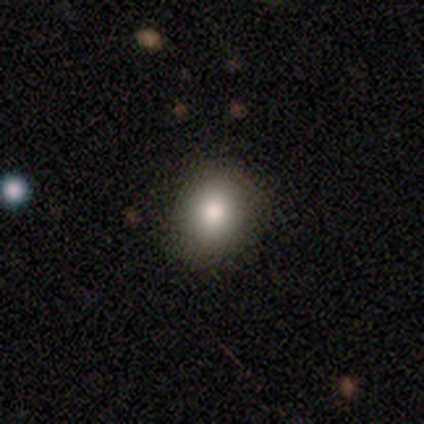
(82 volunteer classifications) Smooth or featured? smooth (87%)
How rounded? round (70%)
Merging? none (82%)